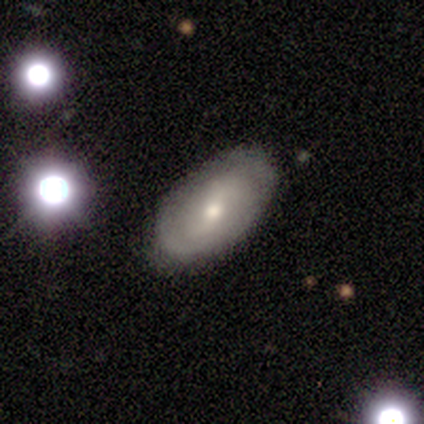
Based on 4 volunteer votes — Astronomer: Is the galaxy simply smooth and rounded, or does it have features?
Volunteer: featured or disk — 100%.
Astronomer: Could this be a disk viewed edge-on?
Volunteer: no — 100%.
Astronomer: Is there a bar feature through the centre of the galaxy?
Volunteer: weak — 50%, tied with no at 50%.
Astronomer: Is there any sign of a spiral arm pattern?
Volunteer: yes — 50%, tied with no at 50%.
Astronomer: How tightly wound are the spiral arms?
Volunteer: tight — 100%.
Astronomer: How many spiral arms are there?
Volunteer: can't tell — 100%.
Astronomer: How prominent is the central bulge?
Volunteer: moderate — 75%.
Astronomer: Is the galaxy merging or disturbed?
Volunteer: none — 75%.